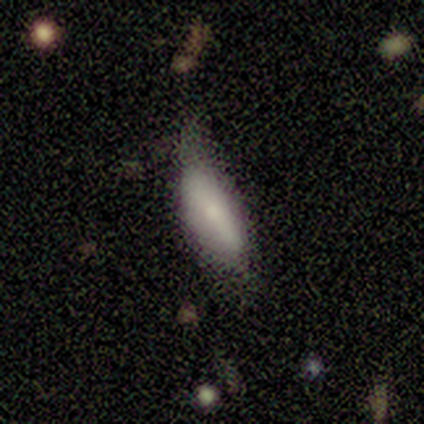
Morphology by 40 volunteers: This appears to be a smooth galaxy with no disk features (75%) that is in between round and cigar-shaped (73%). Merging: minor disturbance (63%).